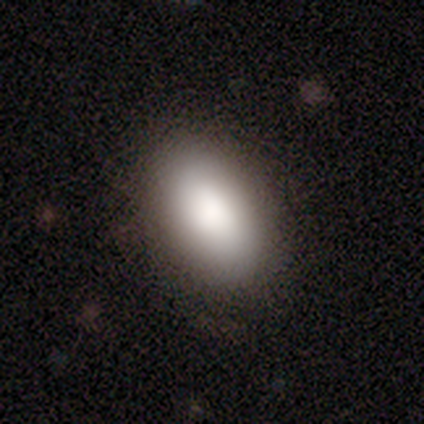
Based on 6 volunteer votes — Smooth or featured? smooth (100%)
How rounded? in between (100%)
Merging? none (100%)